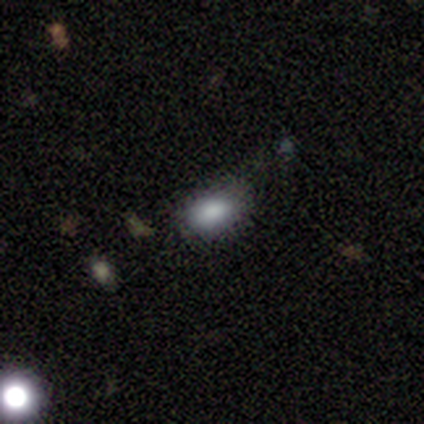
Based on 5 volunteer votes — This is clearly a smooth galaxy (80%). How rounded: likely round (75%). Merging: likely none (60%).